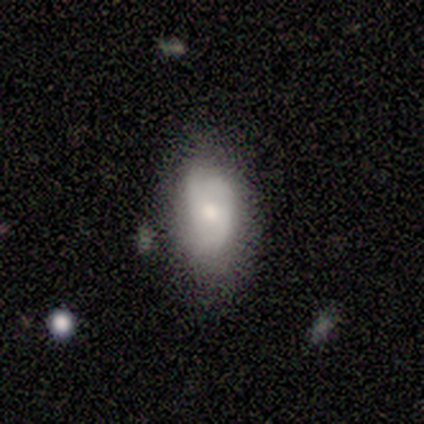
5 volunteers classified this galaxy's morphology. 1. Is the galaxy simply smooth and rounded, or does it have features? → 40% smooth (tied), 40% featured or disk (tied), 20% star or artifact.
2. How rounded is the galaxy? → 100% in between, 0% round, 0% cigar-shaped.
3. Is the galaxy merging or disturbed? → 75% none, 25% minor disturbance, 0% major disturbance, 0% merger.